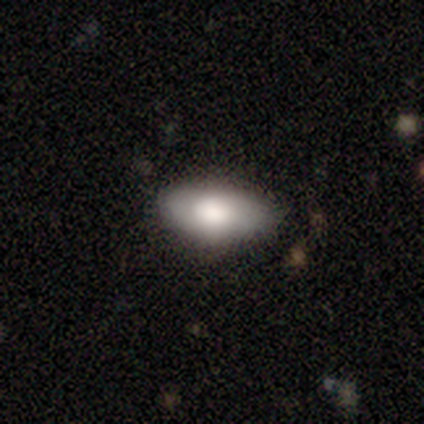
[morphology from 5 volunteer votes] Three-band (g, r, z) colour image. It shows a smooth galaxy with no disk features (100%) that is in between round and cigar-shaped (100%). Merging: none (60%).